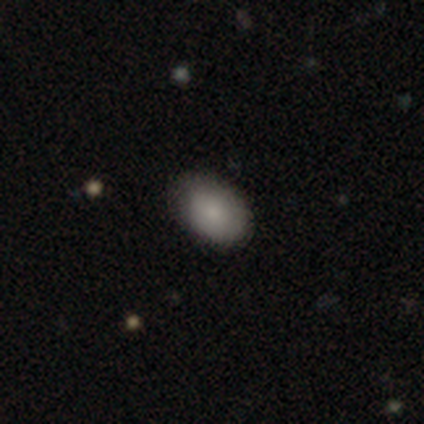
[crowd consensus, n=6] A smooth galaxy with no disk features (100%) that is round (50%, tied with in between).

Vote fractions:
- Smooth or featured? smooth: 100% / featured or disk: 0% / star or artifact: 0%
- How rounded? round: 50% (tied) / in between: 50% (tied) / cigar-shaped: 0%
- Merging? none: 67% / minor disturbance: 33% / major disturbance: 0% / merger: 0%